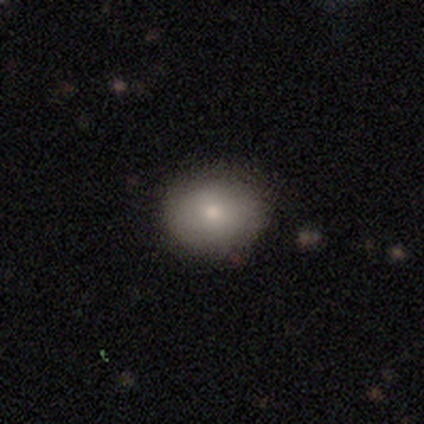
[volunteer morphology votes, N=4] A smooth galaxy with no disk features (75%) that is in between round and cigar-shaped (67%). Merging: none (50%, tied with minor disturbance).